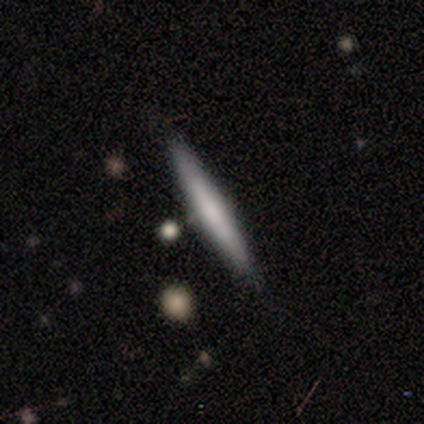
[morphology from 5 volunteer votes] Smooth or featured?
  - smooth: 80% *
  - star or artifact: 20%
  - featured or disk: 0%
How rounded?
  - cigar-shaped: 100% *
  - round: 0%
  - in between: 0%
Merging?
  - none: 75% *
  - minor disturbance: 25%
  - major disturbance: 0%
  - merger: 0%